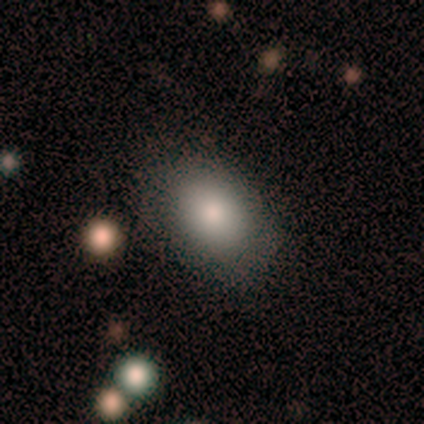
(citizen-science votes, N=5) This is likely a smooth galaxy (60%). How rounded: clearly in between (100%). Merging: clearly none (100%).